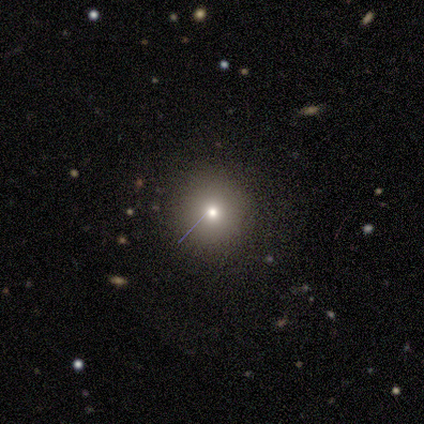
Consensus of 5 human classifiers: Q: Smooth or featured?
A: smooth (60%); runner-up: featured or disk (20%)
Q: How rounded?
A: round (100%)
Q: Merging?
A: none (75%); runner-up: minor disturbance (25%)